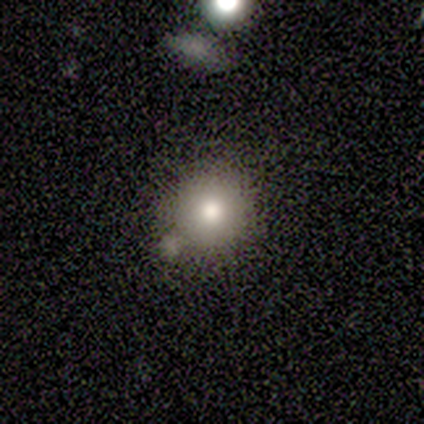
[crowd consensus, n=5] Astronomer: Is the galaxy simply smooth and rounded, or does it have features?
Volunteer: smooth — 80%.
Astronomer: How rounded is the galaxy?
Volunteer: round — 100%.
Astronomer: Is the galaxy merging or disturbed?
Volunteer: none — 50%, tied with minor disturbance at 50%.